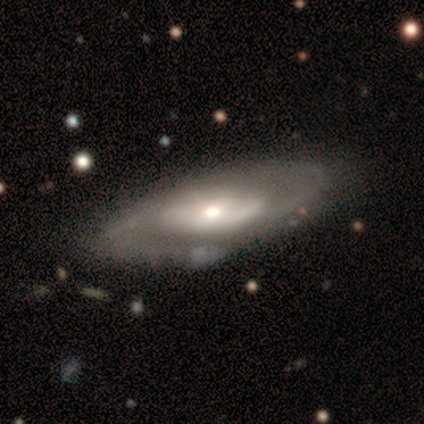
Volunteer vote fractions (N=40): Overall: featured or disk (90%). Edge-on disk: no (83%). Bar: no (60%; weak 37%). Spiral arms: yes (80%). Spiral arm count: 2 (75%). Spiral winding: medium (58%; loose 25%). Bulge size: moderate (50%; small 30%). Merging: none (77%).